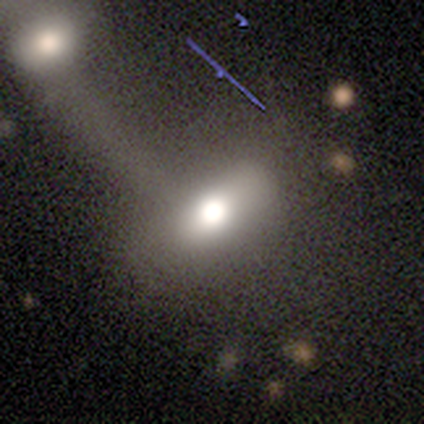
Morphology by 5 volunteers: type=smooth (60%); roundness=in between (100%); merging=none (50%).